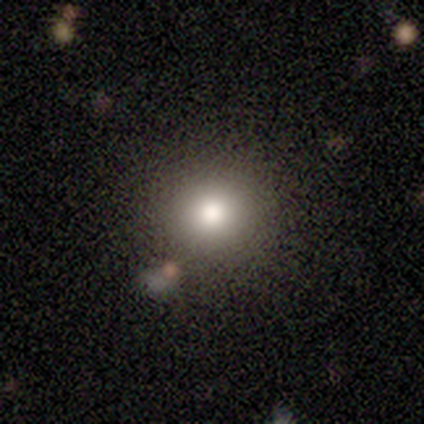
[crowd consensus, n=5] smooth-or-featured: star or artifact: 60% | smooth: 40% | featured or disk: 0%